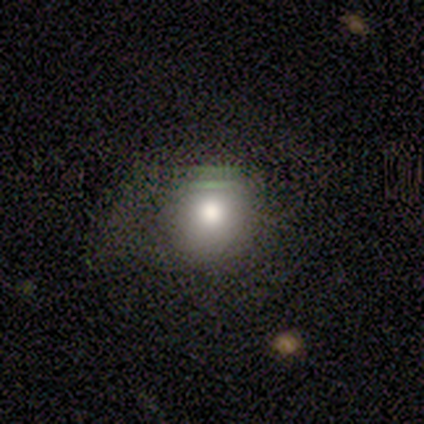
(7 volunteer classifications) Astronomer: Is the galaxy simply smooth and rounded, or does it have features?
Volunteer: smooth — 100%.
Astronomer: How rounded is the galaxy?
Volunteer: round — 100%.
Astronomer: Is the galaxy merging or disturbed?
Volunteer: none — 86%.